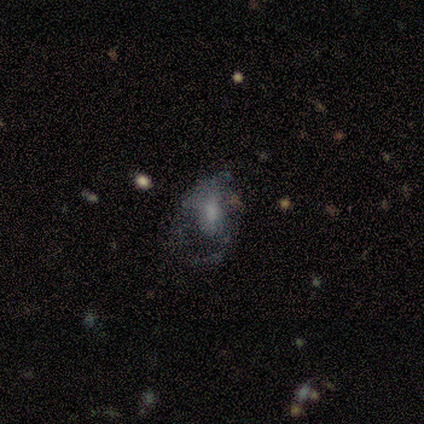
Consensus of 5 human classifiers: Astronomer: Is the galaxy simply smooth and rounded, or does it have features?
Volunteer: featured or disk — 60%.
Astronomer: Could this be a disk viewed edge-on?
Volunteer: no — 100%.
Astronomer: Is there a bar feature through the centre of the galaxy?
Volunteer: no — 100%.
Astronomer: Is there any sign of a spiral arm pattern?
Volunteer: no — 67%.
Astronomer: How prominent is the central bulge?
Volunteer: none — 67%.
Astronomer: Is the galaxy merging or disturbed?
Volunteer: none — 75%.